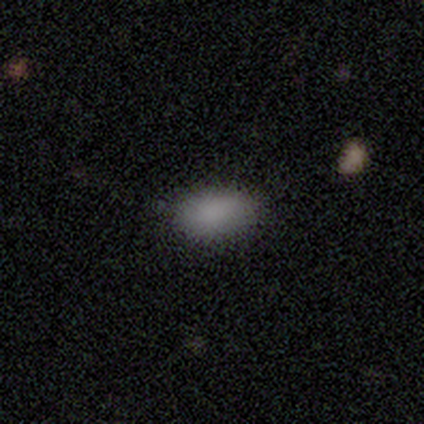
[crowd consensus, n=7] Morphology: type=smooth (86%); roundness=in between (100%); merging=none (50%, tied with minor disturbance).